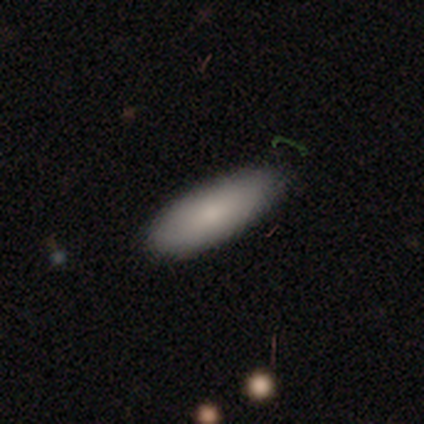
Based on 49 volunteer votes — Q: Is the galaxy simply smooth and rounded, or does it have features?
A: smooth — 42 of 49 (86%).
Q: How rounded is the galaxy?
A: in between — 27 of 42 (64%).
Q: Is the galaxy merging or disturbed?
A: none — 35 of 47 (74%).